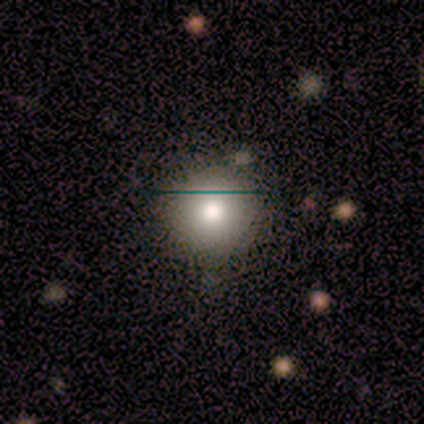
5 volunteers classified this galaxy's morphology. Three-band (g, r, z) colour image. It shows a smooth galaxy with no disk features (60%) that is round (100%). Merging: none (67%).